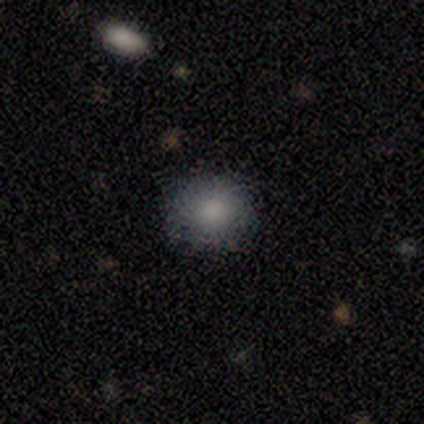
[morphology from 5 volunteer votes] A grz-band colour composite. It shows a smooth galaxy with no disk features (100%) that is round (100%). Merging: none (80%).